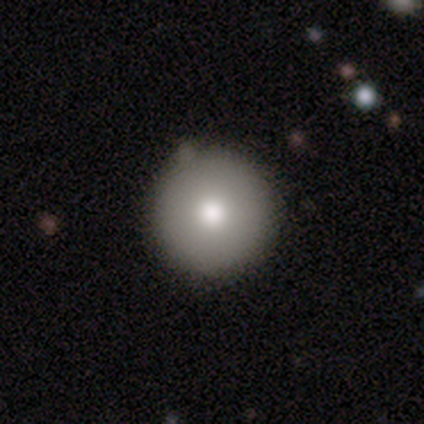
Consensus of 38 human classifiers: Smooth or featured? 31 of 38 (82%) said smooth. How rounded? 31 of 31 (100%) said round. Merging? 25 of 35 (71%) said none.